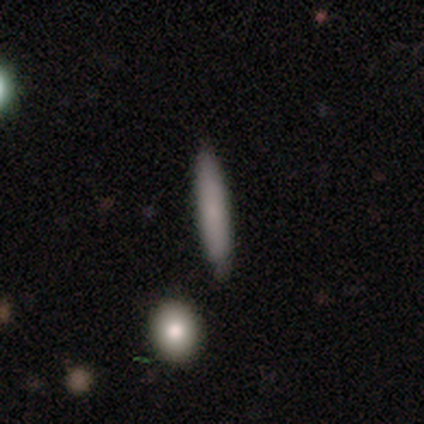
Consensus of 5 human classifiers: Smooth or featured?
  - smooth: 80% *
  - featured or disk: 20%
  - star or artifact: 0%
How rounded?
  - cigar-shaped: 100% *
  - round: 0%
  - in between: 0%
Merging?
  - none: 80% *
  - major disturbance: 20%
  - minor disturbance: 0%
  - merger: 0%